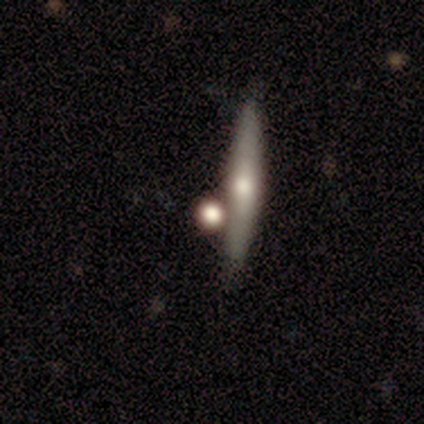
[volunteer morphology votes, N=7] A featured or disk galaxy (43%, tied with star or artifact) viewed edge-on (100%) with a rounded central bulge (100%). Merging: none (75%).